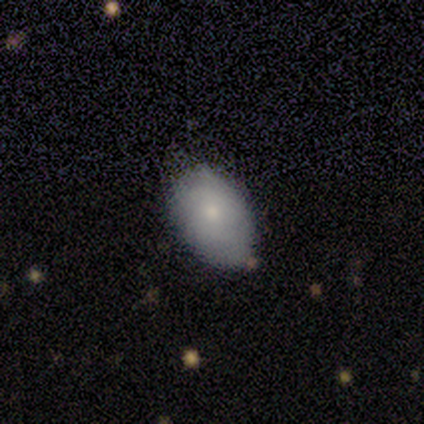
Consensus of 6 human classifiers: Q: Smooth or featured?
A: smooth (67%); runner-up: featured or disk (33%)
Q: How rounded?
A: in between (75%); runner-up: round (25%)
Q: Merging?
A: none (67%); runner-up: minor disturbance (17%)